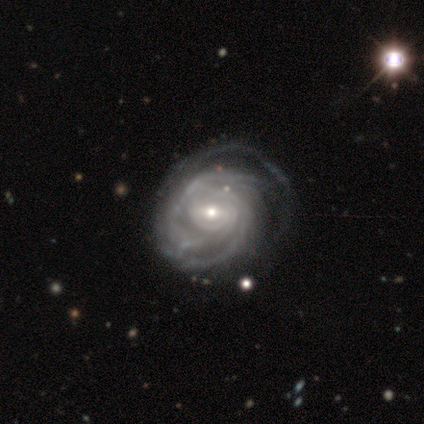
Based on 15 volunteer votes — featured or disk 93%, star or artifact 7%, smooth 0%. Down the decision tree: edge-on disk — no (100%); bar — weak (57%); spiral arms — yes (100%); spiral arm count — can't tell (29%); spiral winding — tight (93%); bulge size — small (64%); merging — none (57%).